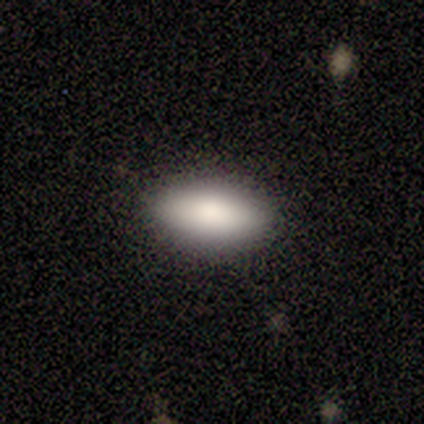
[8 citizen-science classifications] Smooth or featured: smooth — 88% (featured or disk — 12%)
How rounded: in between — 100%
Merging: none — 100%